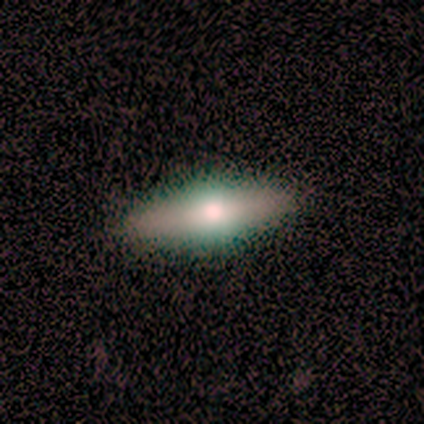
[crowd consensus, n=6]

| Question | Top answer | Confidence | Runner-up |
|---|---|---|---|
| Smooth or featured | smooth | 50% | tied: featured or disk (50%) |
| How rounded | in between | 67% | cigar-shaped (33%) |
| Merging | none | 83% | minor disturbance (17%) |